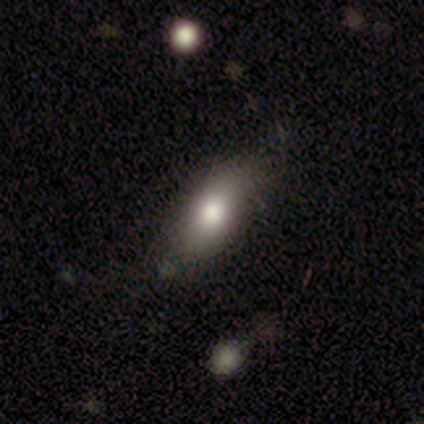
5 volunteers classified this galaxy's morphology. Smooth or featured: smooth — 100%
How rounded: in between — 80% (cigar-shaped — 20%)
Merging: none — 60% (minor disturbance — 40%)